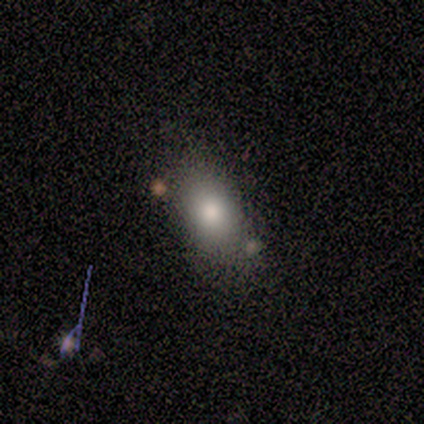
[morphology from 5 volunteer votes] A smooth galaxy with no disk features (80%) that is in between round and cigar-shaped (100%). Merging: none (60%).